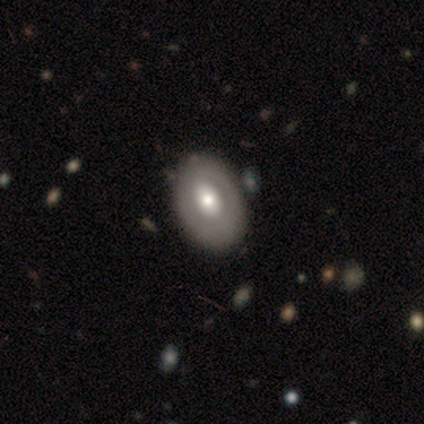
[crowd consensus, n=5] This appears to be a featured or disk galaxy (80%) with a strong bar (33%, tied with weak and no), 1 (50%, tied with 2) tight (50%, tied with medium) spiral arms (67%) and a small central bulge (67%). Merging: none (100%).